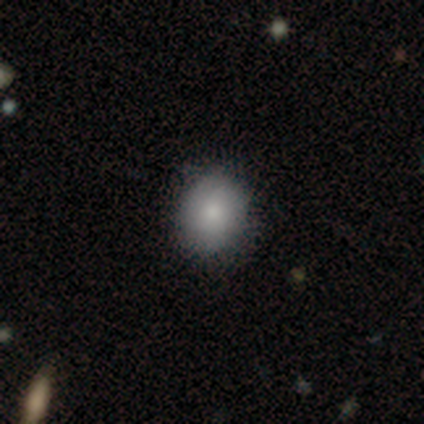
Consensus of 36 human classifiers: Smooth or featured? 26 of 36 (72%) said smooth. How rounded? 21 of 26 (81%) said round. Merging? 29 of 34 (85%) said none.